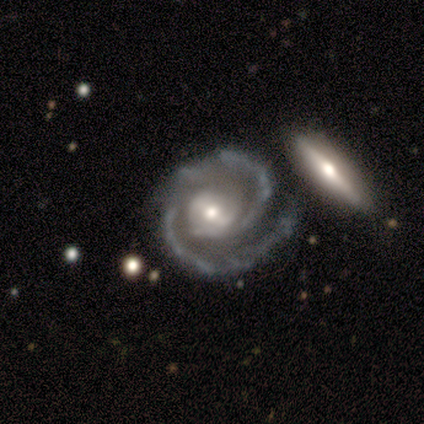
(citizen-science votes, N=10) Smooth or featured? featured or disk (90%)
Edge-on disk? no (100%)
Bar? strong (33%, tied with weak and no)
Spiral arms? yes (100%)
Spiral winding? tight (67%)
Spiral arm count? 2 (100%)
Bulge size? small (67%)
Merging? none (80%)